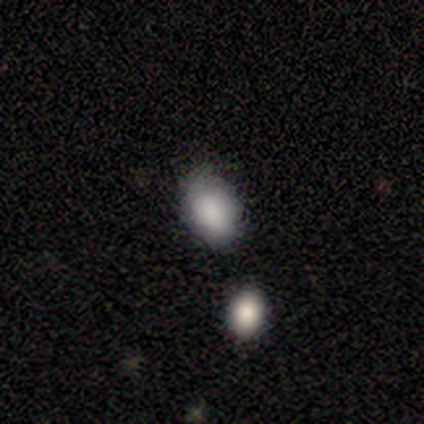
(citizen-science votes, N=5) This appears to be a smooth galaxy with no disk features (100%) that is in between round and cigar-shaped (100%). Merging: none (60%).